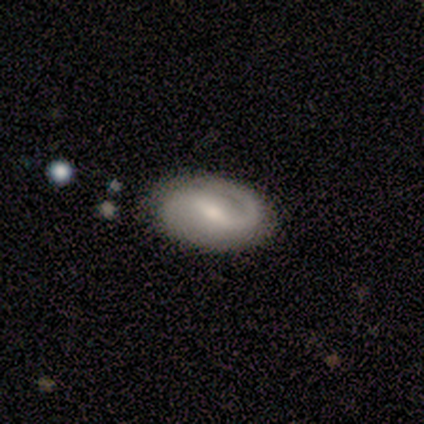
Volunteers were most divided on "bulge size": small: 48%, moderate: 45%, none: 6%, dominant: 0%, large: 0%. Remaining: edge-on disk — no (94%); spiral arms — yes (90%); smooth or featured — featured or disk (85%); merging — none (70%); bar — weak (68%); spiral arm count — 2 (61%); spiral winding — tight (46%).